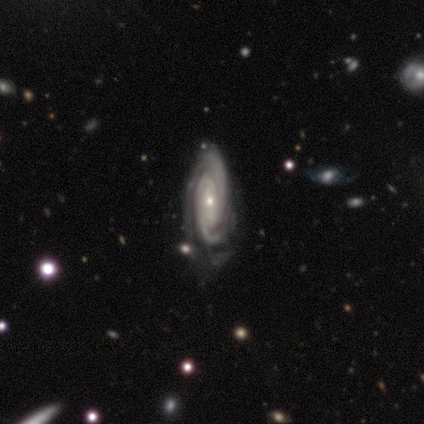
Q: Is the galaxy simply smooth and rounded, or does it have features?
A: featured or disk — 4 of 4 (100%).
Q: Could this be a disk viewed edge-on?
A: no — 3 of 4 (75%).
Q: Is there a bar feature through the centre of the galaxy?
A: no — 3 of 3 (100%).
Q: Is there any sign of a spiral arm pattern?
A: yes — 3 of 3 (100%).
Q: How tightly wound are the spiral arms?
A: tight — 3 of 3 (100%).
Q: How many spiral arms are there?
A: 2 — 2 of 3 (67%).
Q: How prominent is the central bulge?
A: small — 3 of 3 (100%).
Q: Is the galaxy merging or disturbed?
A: none — 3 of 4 (75%).